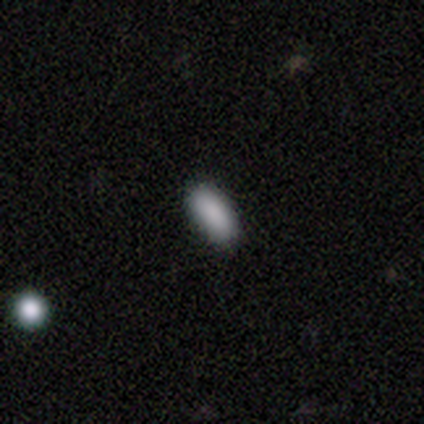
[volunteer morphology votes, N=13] Volunteers were most divided on "merging": none: 60%, minor disturbance: 30%, merger: 10%, major disturbance: 0%. More confident: how rounded — in between (100%); smooth or featured — smooth (77%).